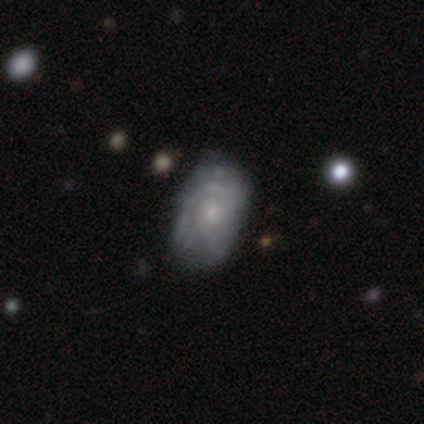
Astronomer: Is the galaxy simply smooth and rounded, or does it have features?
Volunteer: featured or disk — 64%.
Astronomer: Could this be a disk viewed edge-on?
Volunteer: no — 98%.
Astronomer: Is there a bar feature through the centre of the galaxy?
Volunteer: no — 84%.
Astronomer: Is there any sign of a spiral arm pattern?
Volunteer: yes — 67%.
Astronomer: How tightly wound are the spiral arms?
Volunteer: tight — 70%.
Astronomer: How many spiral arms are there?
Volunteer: can't tell — 61%.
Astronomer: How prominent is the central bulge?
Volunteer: small — 61%.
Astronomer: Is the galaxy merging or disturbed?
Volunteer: none — 57% (runner-up: minor disturbance, 36%).